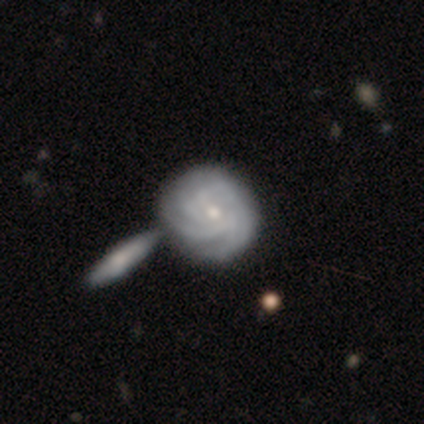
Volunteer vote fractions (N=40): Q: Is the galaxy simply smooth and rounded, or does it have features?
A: featured or disk — 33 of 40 (82%).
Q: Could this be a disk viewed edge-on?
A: no — 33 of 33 (100%).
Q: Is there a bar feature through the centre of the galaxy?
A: no — 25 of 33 (76%).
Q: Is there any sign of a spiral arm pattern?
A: yes — 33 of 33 (100%).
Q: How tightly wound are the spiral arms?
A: tight — 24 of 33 (73%).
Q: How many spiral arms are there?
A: can't tell — 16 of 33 (48%).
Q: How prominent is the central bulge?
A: small — 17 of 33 (52%).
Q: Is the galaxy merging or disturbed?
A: merger — 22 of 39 (56%).